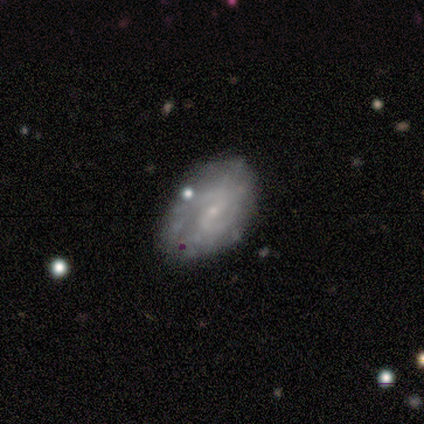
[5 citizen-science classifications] smooth-or-featured: featured or disk: 100% | smooth: 0% | star or artifact: 0%
  disk-edge-on: no: 100% | yes: 0%
    bar: weak: 60% | no: 40% | strong: 0%
    has-spiral-arms: yes: 100% | no: 0%
      spiral-winding: tight: 40% (tied) | loose: 40% (tied) | medium: 20%
      spiral-arm-count: 2: 80% | can't tell: 20% | 1: 0% | 3: 0% | 4: 0% | more than 4: 0%
    bulge-size: small: 100% | dominant: 0% | large: 0% | moderate: 0% | none: 0%
  merging: none: 60% | minor disturbance: 40% | major disturbance: 0% | merger: 0%